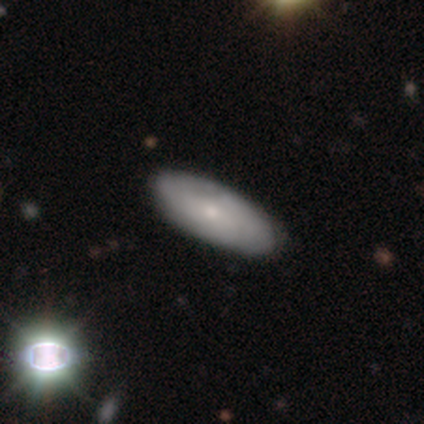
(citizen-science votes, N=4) Smooth or featured: smooth — 100%
How rounded: in between — 75% (cigar-shaped — 25%)
Merging: none — 75% (minor disturbance — 25%)